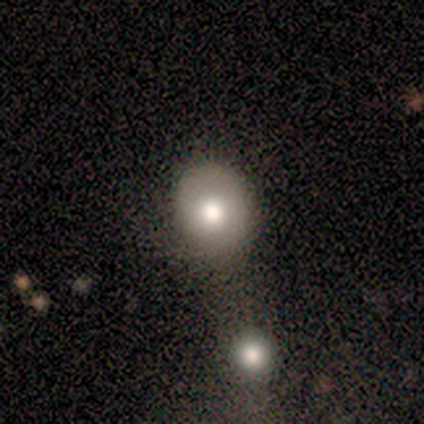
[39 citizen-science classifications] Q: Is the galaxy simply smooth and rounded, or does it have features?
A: smooth — 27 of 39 (69%).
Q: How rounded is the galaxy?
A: round — 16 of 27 (59%).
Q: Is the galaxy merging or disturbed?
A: none — 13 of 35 (37%).